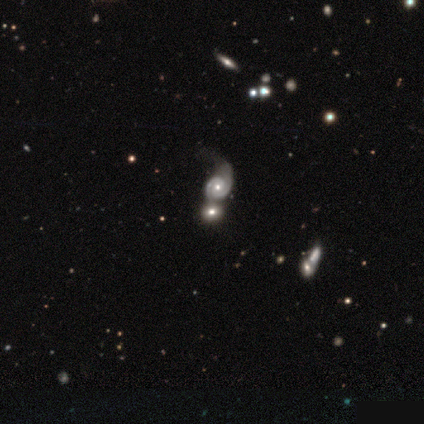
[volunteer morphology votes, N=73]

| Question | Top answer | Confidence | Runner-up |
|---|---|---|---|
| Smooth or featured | featured or disk | 73% | smooth (18%) |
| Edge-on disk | no | 98% | yes (2%) |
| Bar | no | 75% | weak (19%) |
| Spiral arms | yes | 83% | no (17%) |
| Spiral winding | tight | 49% | medium (40%) |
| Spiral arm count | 2 | 88% | can't tell (12%) |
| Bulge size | moderate | 71% | small (23%) |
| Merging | merger | 50% | none (23%) |